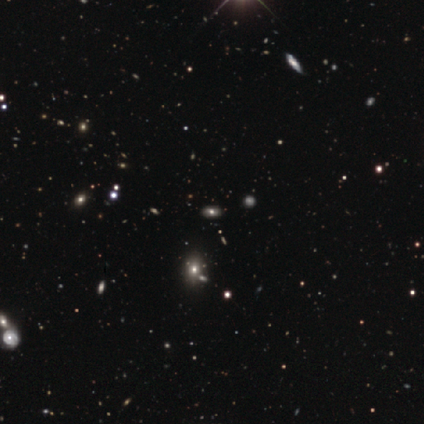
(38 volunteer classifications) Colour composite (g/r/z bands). It shows a star or artifact, not a galaxy (45%).